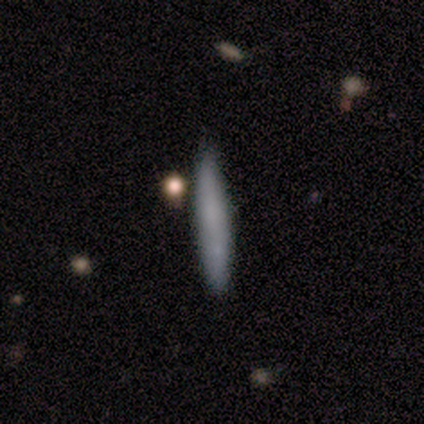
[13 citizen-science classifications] Smooth or featured?
  - smooth: 54% *
  - featured or disk: 23%
  - star or artifact: 23%
How rounded?
  - cigar-shaped: 100% *
  - round: 0%
  - in between: 0%
Merging?
  - none: 90% *
  - minor disturbance: 10%
  - major disturbance: 0%
  - merger: 0%